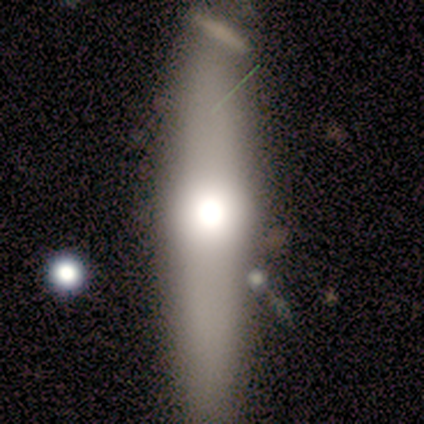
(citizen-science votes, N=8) This appears to be a smooth galaxy with no disk features (100%) that is cigar-shaped (75%). Merging: none (62%).